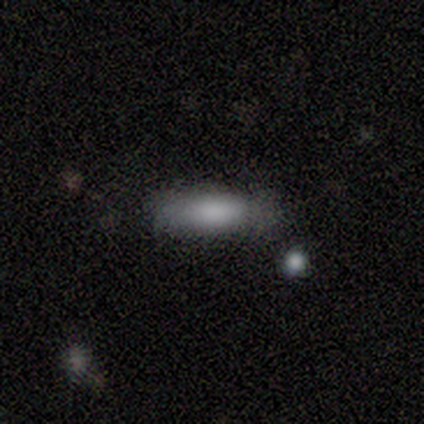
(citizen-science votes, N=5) Smooth or featured? smooth (80%)
How rounded? in between (75%)
Merging? none (75%)